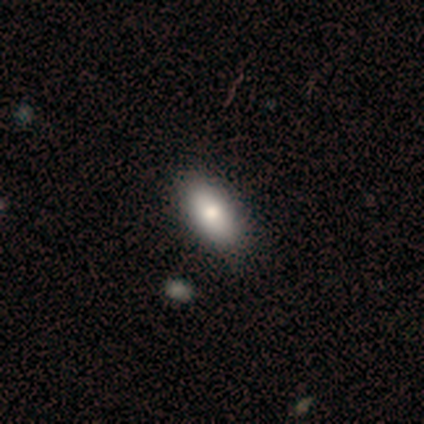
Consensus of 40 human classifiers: This is clearly a smooth galaxy (80%). How rounded: clearly in between (91%). Merging: likely none (68%).